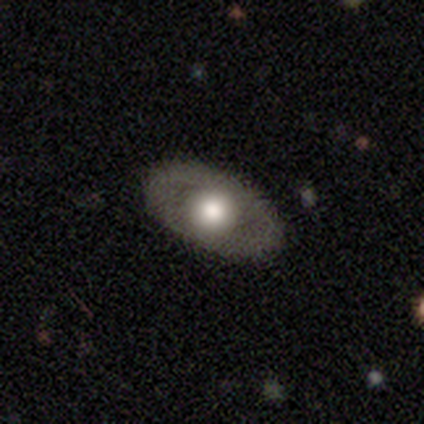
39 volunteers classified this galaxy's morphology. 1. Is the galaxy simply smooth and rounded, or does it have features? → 49% featured or disk, 44% smooth, 8% star or artifact.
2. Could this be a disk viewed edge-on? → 79% no, 21% yes.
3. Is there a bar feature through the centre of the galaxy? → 93% no, 7% weak, 0% strong.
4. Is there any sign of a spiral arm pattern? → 93% no, 7% yes.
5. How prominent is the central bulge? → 53% moderate, 40% large, 7% small, 0% dominant, 0% none.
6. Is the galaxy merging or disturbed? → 89% none, 6% minor disturbance, 6% major disturbance, 0% merger.